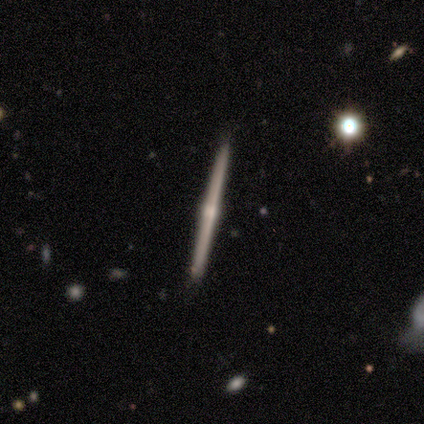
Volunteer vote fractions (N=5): Smooth or featured? 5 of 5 (100%) said featured or disk. Edge-on disk? 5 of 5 (100%) said yes. Edge-on bulge? 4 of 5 (80%) said rounded. Merging? 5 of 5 (100%) said none.